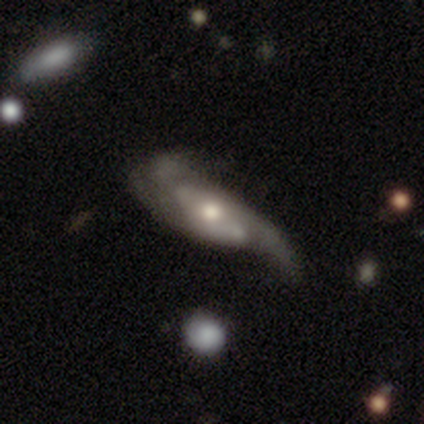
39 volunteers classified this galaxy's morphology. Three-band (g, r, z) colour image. It shows a featured or disk galaxy (67%) with no bar (42%), 2 (61%) medium (50%) spiral arms (95%) and a moderate central bulge (58%). Merging: none (44%).